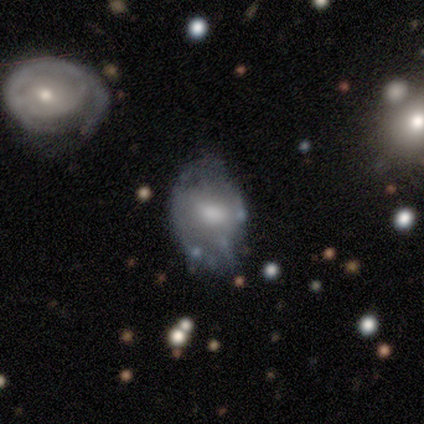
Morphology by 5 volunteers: smooth_or_featured: featured or disk (p=0.60) [alt: smooth p=0.20]
disk_edge_on: no (p=0.67) [alt: yes p=0.33]
bar: weak (p=0.50) [tied with: no p=0.50]
has_spiral_arms: yes (p=0.50) [tied with: no p=0.50]
spiral_winding: tight (p=1.00)
spiral_arm_count: can't tell (p=1.00)
bulge_size: small (p=0.50) [tied with: none p=0.50]
merging: minor disturbance (p=0.50) [alt: none p=0.25]